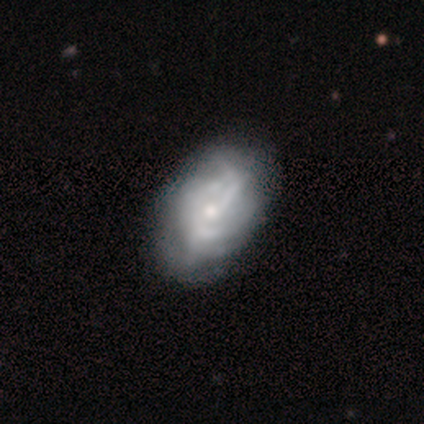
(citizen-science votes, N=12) Morphology: type=featured or disk (92%); edge-on=no (100%); bar=no (82%); spiral arms=yes (55%); winding=tight (83%); arm count=can't tell (67%); bulge=small (82%); merging=none (64%).